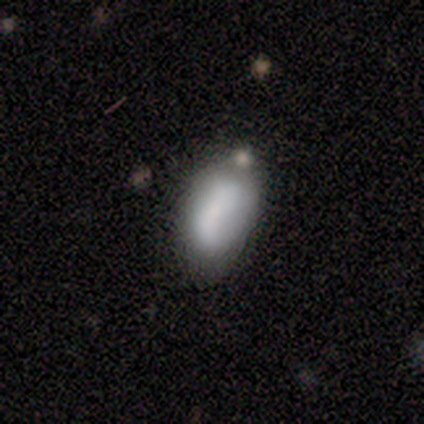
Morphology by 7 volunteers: Overall: smooth (100%). How rounded: in between (100%). Merging: minor disturbance (57%; none 29%).